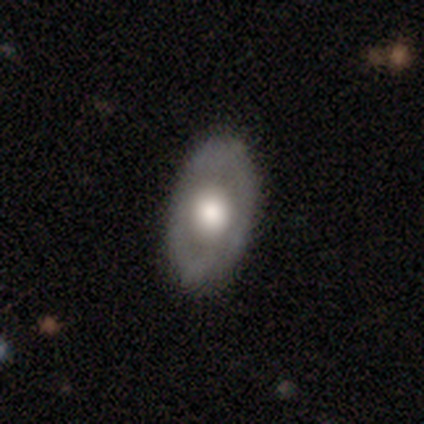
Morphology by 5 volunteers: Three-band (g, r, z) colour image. It shows a featured or disk galaxy (80%) with no bar (50%), no spiral arms (100%) and a moderate central bulge (75%). Merging: none (100%).